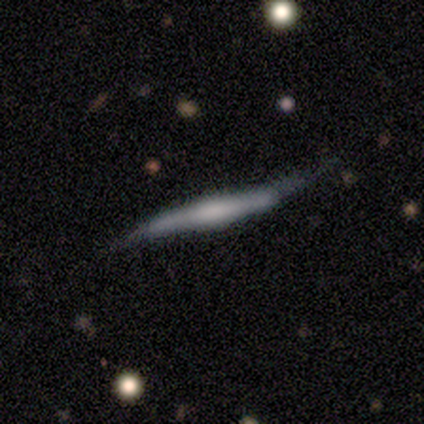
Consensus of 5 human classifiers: This appears to be a featured or disk galaxy (60%) viewed edge-on (100%) with a boxy central bulge (67%). Merging: none (40%, tied with minor disturbance).